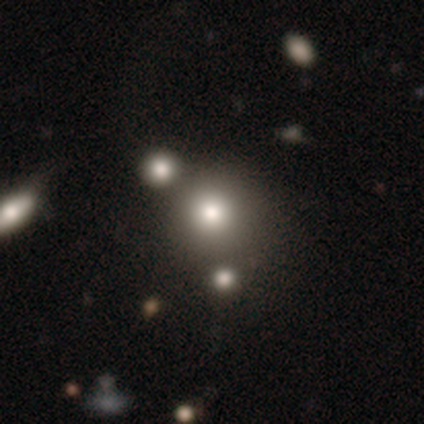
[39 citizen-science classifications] This appears to be a smooth galaxy with no disk features (74%) that is round (79%). Merging: none (56%).